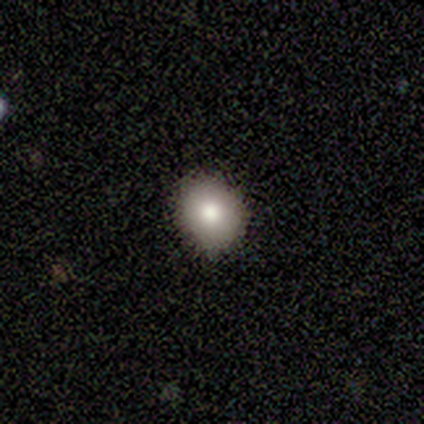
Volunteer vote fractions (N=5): Smooth or featured: smooth — 100%
How rounded: round — 60% (in between — 40%)
Merging: none — 100%